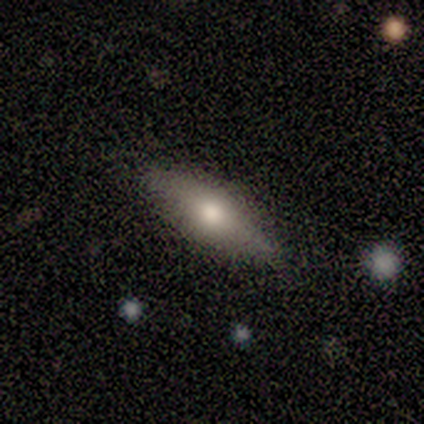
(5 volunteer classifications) Morphology: type=smooth (60%); roundness=cigar-shaped (67%); merging=none (100%).